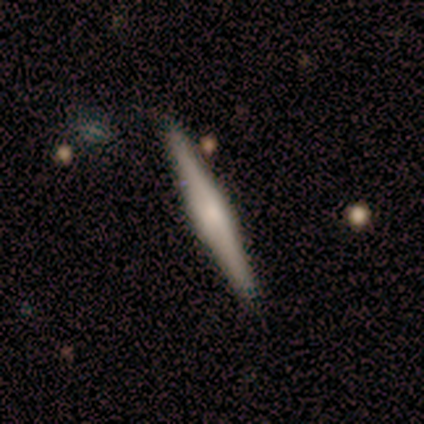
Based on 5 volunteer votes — Morphology: type=featured or disk (80%); edge-on=yes (100%); edge-on bulge=boxy (75%); merging=none (100%).